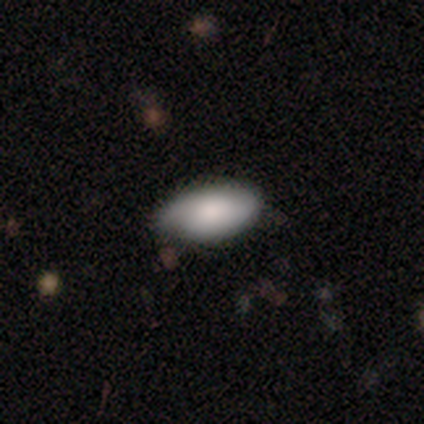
This is likely a smooth galaxy (62%). How rounded: clearly in between (100%). Merging: likely none (64%).